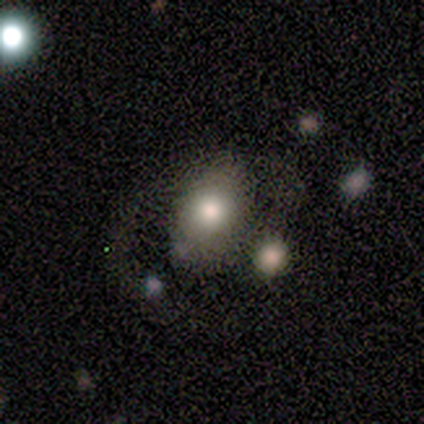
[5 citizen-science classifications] This is clearly a smooth galaxy (80%). How rounded: likely round (75%). Merging: possibly none (50%, tied with minor disturbance).